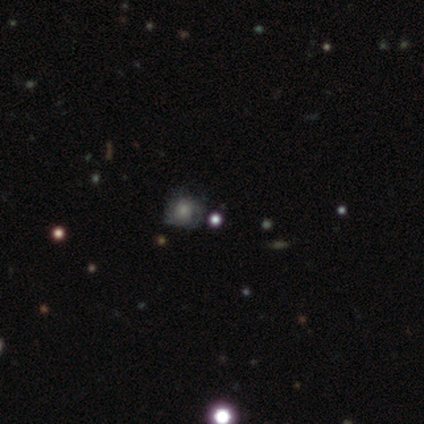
Overall: smooth (60%; featured or disk 20%). How rounded: round (67%; in between 33%). Merging: none (75%).